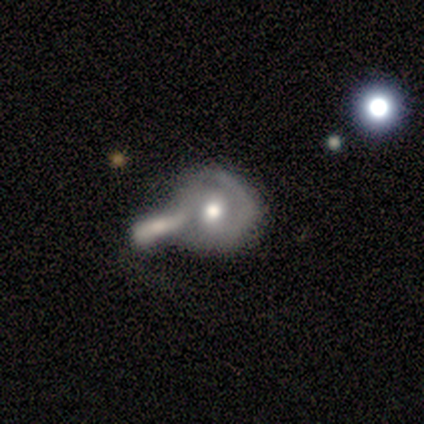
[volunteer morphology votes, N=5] A featured or disk galaxy (60%) with no bar (100%), 2 (100%) tight (50%, tied with medium) spiral arms (67%) and a moderate central bulge (100%). Merging: merger (60%).